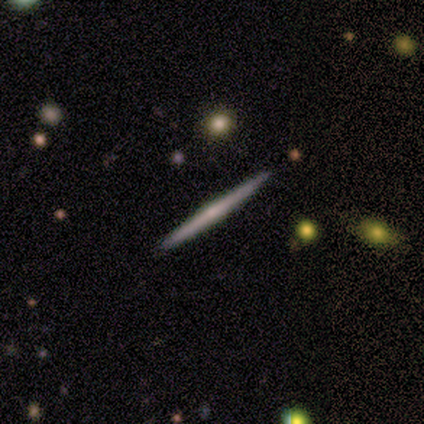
Morphology: type=featured or disk (100%); edge-on=yes (100%); edge-on bulge=none (60%); merging=none (100%).